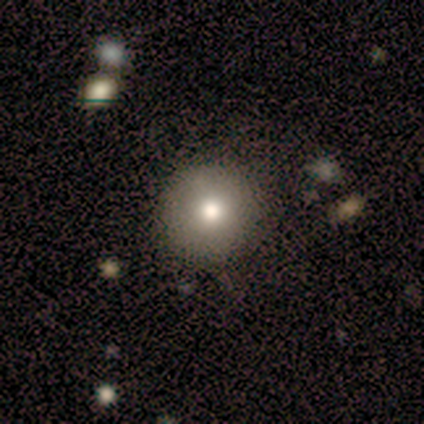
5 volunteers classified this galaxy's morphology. Smooth or featured? 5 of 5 (100%) said smooth. How rounded? 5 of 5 (100%) said round. Merging? 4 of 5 (80%) said none.